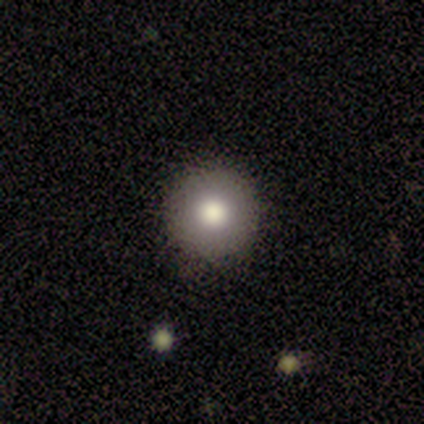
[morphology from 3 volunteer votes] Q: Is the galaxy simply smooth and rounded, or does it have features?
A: star or artifact — 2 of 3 (67%).